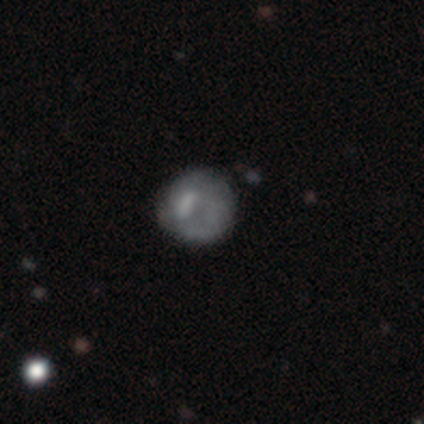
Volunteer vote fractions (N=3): Smooth or featured?
  - smooth: 67% *
  - featured or disk: 33%
  - star or artifact: 0%
How rounded?
  - round: 100% *
  - in between: 0%
  - cigar-shaped: 0%
Merging?
  - none: 67% *
  - major disturbance: 33%
  - minor disturbance: 0%
  - merger: 0%